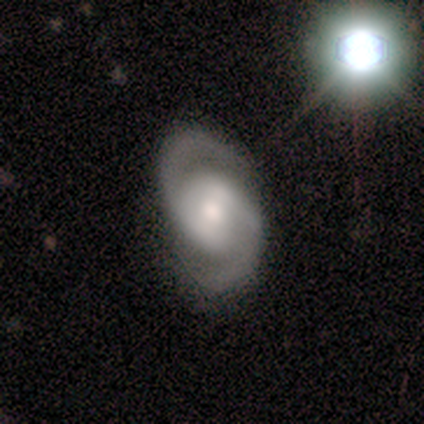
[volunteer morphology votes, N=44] Smooth or featured?
  - featured or disk: 91% *
  - smooth: 7%
  - star or artifact: 2%
Edge-on disk?
  - no: 100% *
  - yes: 0%
Bar?
  - weak: 35% *
  - strong: 32%
  - no: 32%
Spiral arms?
  - yes: 100% *
  - no: 0%
Spiral winding?
  - medium: 52% *
  - tight: 40%
  - loose: 8%
Spiral arm count?
  - 2: 100% *
  - 1: 0%
  - 3: 0%
  - 4: 0%
  - more than 4: 0%
  - can't tell: 0%
Bulge size?
  - moderate: 65% *
  - large: 20%
  - small: 15%
  - dominant: 0%
  - none: 0%
Merging?
  - none: 81% *
  - minor disturbance: 12%
  - merger: 5%
  - major disturbance: 2%